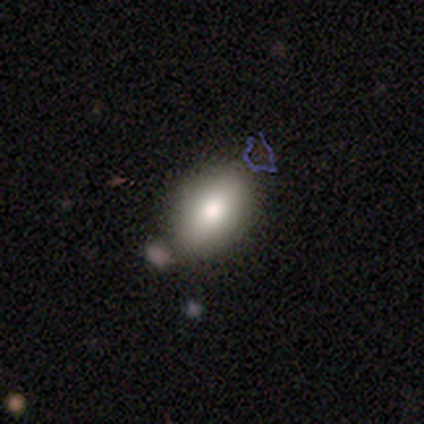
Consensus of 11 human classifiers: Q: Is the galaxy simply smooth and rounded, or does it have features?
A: smooth — 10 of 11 (91%).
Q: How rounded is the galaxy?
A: in between — 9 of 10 (90%).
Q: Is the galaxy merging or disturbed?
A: none — 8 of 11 (73%).